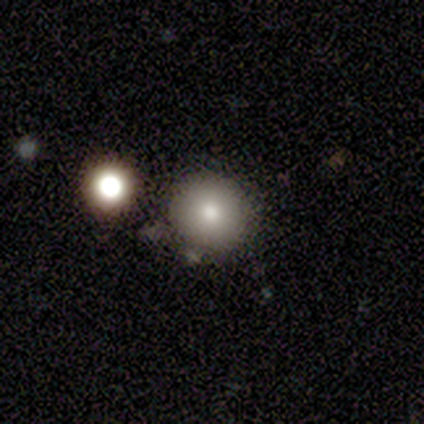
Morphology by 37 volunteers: smooth 73%, star or artifact 16%, featured or disk 11%. Down the decision tree: how rounded — round (85%); merging — none (90%).